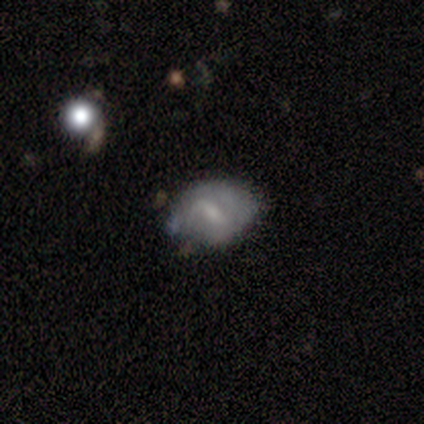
Smooth or featured? featured or disk (52%)
Edge-on disk? no (96%)
Bar? weak (70%)
Spiral arms? yes (57%)
Spiral winding? tight (46%)
Spiral arm count? 2 (38%)
Bulge size? small (43%)
Merging? none (55%)